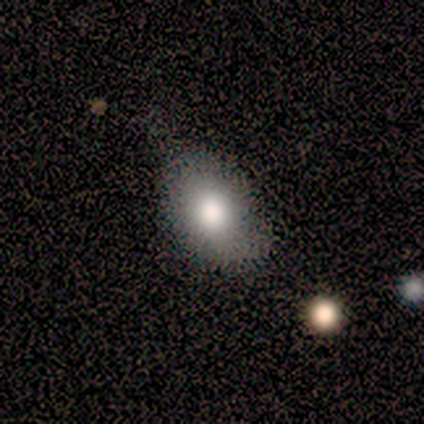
Smooth or featured: smooth — 60% (featured or disk — 20%)
How rounded: in between — 100%
Merging: none — 75% (minor disturbance — 25%)